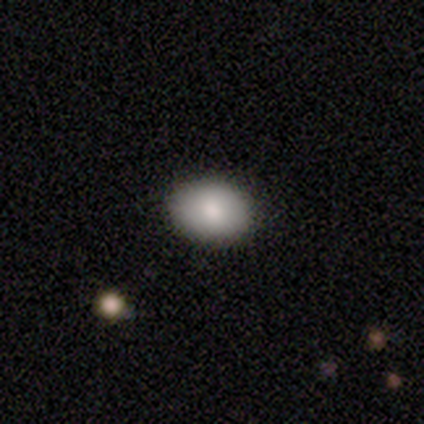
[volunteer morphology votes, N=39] Smooth or featured? 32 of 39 (82%) said smooth. How rounded? 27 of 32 (84%) said in between. Merging? 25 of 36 (69%) said none.